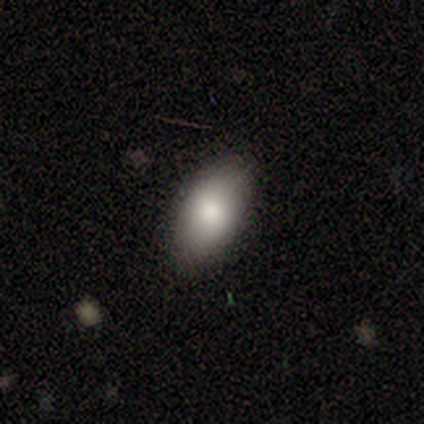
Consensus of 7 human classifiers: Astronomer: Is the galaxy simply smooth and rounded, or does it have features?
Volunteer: smooth — 100%.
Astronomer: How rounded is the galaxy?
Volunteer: in between — 100%.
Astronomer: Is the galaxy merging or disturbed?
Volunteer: none — 86%.